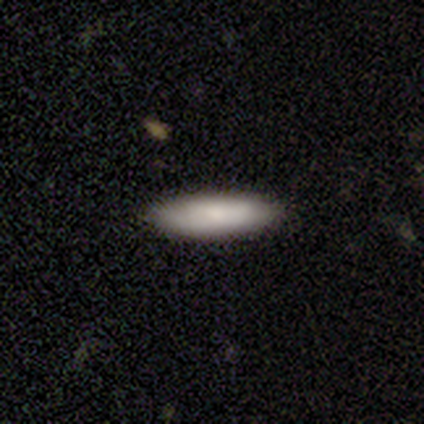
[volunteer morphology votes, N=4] Volunteers were most divided on "how rounded": in between: 67%, cigar-shaped: 33%, round: 0%. More confident: merging — none (100%); smooth or featured — smooth (75%).